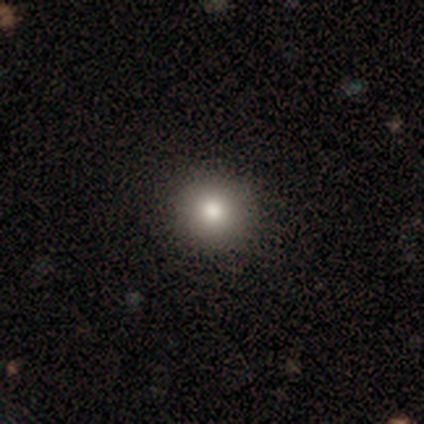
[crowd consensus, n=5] A smooth galaxy with no disk features (80%) that is round (100%). Merging: none (100%).